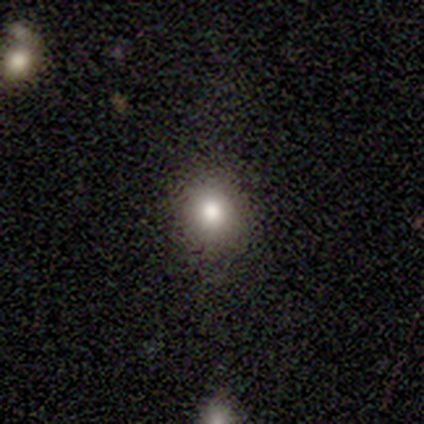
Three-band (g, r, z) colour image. It shows a smooth galaxy with no disk features (100%) that is round (60%). Merging: none (100%).